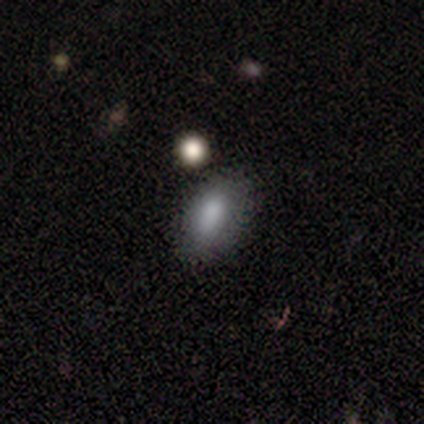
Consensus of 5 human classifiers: This is likely a smooth galaxy (60%). How rounded: clearly in between (100%). Merging: possibly none (50%, tied with minor disturbance).